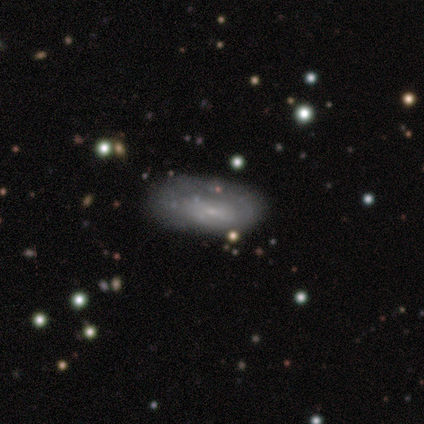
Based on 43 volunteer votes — Q: Smooth or featured?
A: featured or disk (51%); runner-up: smooth (42%)
Q: Edge-on disk?
A: no (95%); runner-up: yes (5%)
Q: Bar?
A: no (57%); runner-up: weak (43%)
Q: Spiral arms?
A: no (57%); runner-up: yes (43%)
Q: Bulge size?
A: small (86%); runner-up: moderate (10%)
Q: Merging?
A: none (60%); runner-up: minor disturbance (20%)